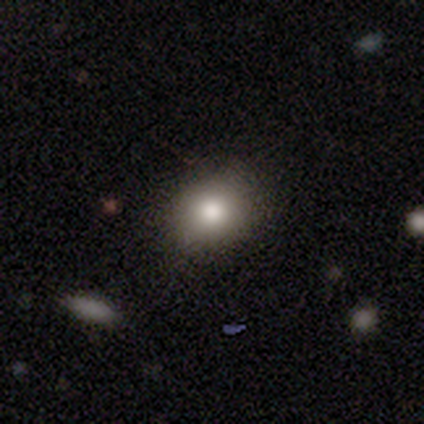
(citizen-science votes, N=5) Smooth or featured? 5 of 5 (100%) said smooth. How rounded? 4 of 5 (80%) said round. Merging? 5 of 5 (100%) said none.